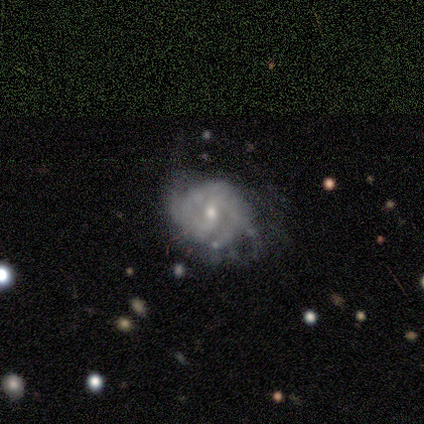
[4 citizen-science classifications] A smooth galaxy with no disk features (50%, tied with featured or disk) that is round (50%, tied with in between).

Vote fractions:
- Smooth or featured? smooth: 50% (tied) / featured or disk: 50% (tied) / star or artifact: 0%
- How rounded? round: 50% (tied) / in between: 50% (tied) / cigar-shaped: 0%
- Merging? minor disturbance: 50% / none: 25% / major disturbance: 25% / merger: 0%